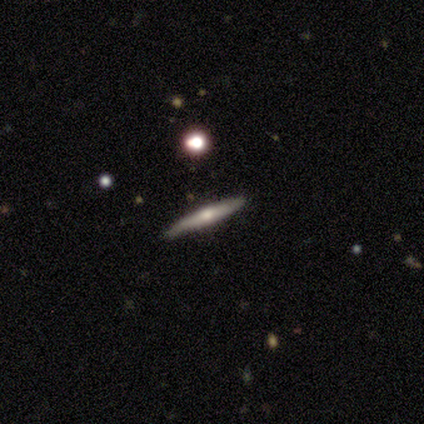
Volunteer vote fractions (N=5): A smooth galaxy with no disk features (40%, tied with featured or disk) that is cigar-shaped (100%). Merging: none (100%).